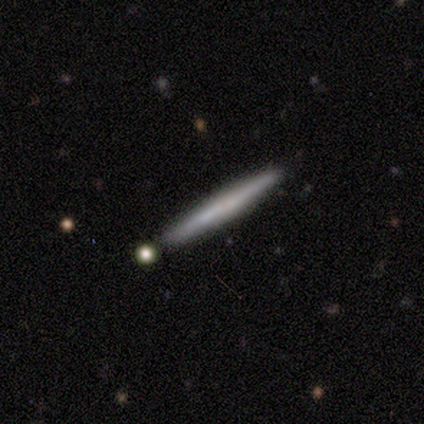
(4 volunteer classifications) A smooth galaxy with no disk features (50%, tied with featured or disk) that is in between round and cigar-shaped (50%, tied with cigar-shaped).

Vote fractions:
- Smooth or featured? smooth: 50% (tied) / featured or disk: 50% (tied) / star or artifact: 0%
- How rounded? in between: 50% (tied) / cigar-shaped: 50% (tied) / round: 0%
- Merging? none: 75% / minor disturbance: 25% / major disturbance: 0% / merger: 0%